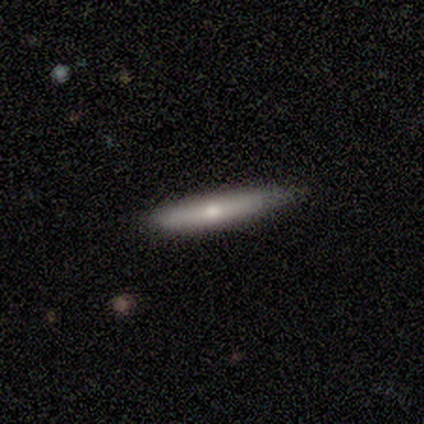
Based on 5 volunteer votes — Smooth or featured: smooth — 80% (featured or disk — 20%)
How rounded: cigar-shaped — 100%
Merging: none — 100%